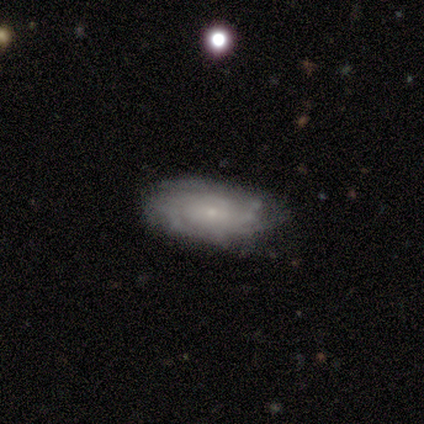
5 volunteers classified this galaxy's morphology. Q: Smooth or featured?
A: featured or disk (80%); runner-up: smooth (20%)
Q: Edge-on disk?
A: no (100%)
Q: Bar?
A: no (50%); runner-up: strong (25%)
Q: Spiral arms?
A: yes (100%)
Q: Spiral winding?
A: tight (50%); runner-up: medium (25%)
Q: Spiral arm count?
A: can't tell (50%); runner-up: 2 (25%)
Q: Bulge size?
A: small (75%); runner-up: moderate (25%)
Q: Merging?
A: none (60%); runner-up: minor disturbance (40%)